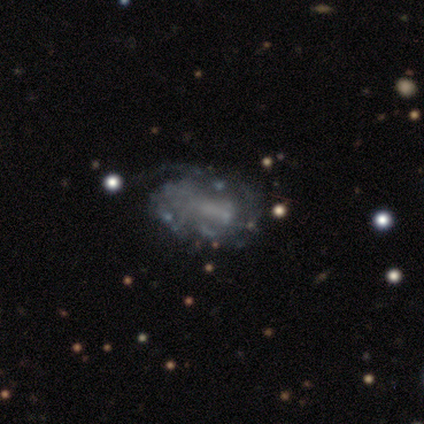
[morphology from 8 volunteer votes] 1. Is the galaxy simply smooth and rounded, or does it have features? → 75% featured or disk, 25% smooth, 0% star or artifact.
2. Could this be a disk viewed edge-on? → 100% no, 0% yes.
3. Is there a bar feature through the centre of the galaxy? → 100% no, 0% strong, 0% weak.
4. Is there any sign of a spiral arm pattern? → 67% no, 33% yes.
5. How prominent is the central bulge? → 83% none, 17% moderate, 0% dominant, 0% large, 0% small.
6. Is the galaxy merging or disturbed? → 50% minor disturbance, 38% major disturbance, 12% none, 0% merger.